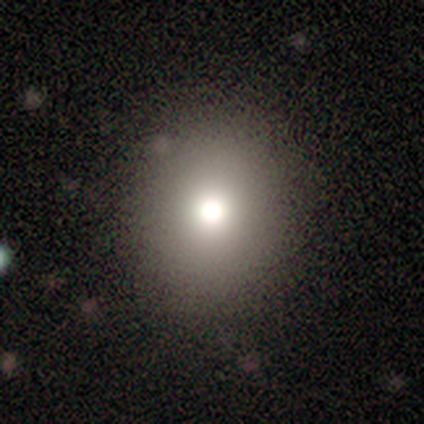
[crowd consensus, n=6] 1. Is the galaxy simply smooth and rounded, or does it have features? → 83% smooth, 17% star or artifact, 0% featured or disk.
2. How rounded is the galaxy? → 60% round, 40% in between, 0% cigar-shaped.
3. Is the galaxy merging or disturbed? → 60% minor disturbance, 20% none, 20% major disturbance, 0% merger.